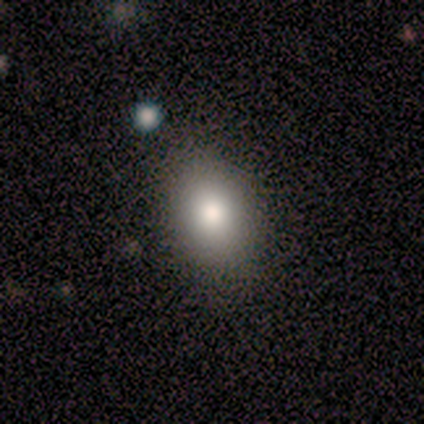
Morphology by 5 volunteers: Overall: smooth (40%, tied with star or artifact). How rounded: in between (100%). Merging: none (67%; minor disturbance 33%).